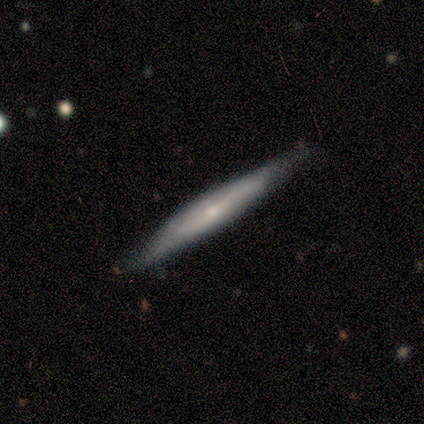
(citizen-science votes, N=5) Morphology: type=featured or disk (60%); edge-on=yes (100%); edge-on bulge=rounded (100%); merging=none (100%).